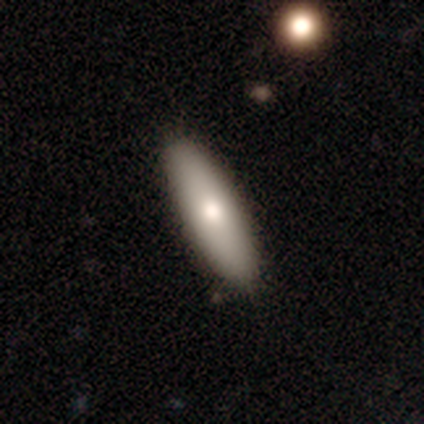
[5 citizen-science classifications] smooth-or-featured: smooth: 60% | featured or disk: 40% | star or artifact: 0%
  how-rounded: in between: 67% | cigar-shaped: 33% | round: 0%
  merging: none: 100% | minor disturbance: 0% | major disturbance: 0% | merger: 0%